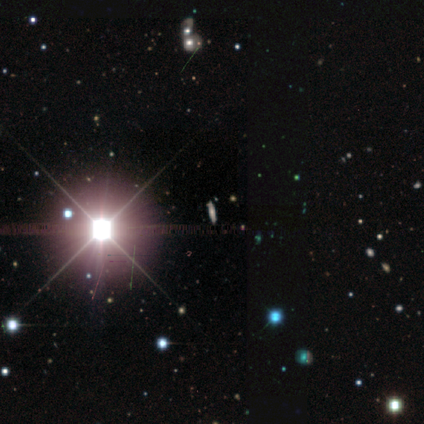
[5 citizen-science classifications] smooth_or_featured: smooth (p=0.40) [tied with: star or artifact p=0.40]
how_rounded: cigar-shaped (p=1.00)
merging: none (p=1.00)